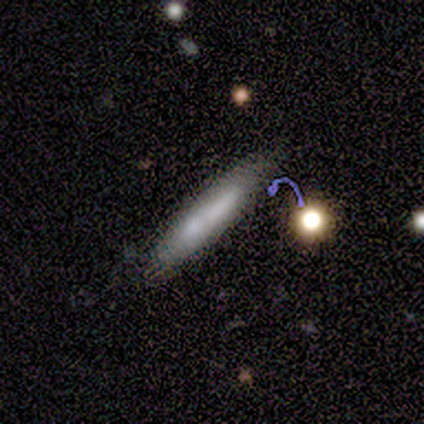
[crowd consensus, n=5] This appears to be a smooth galaxy with no disk features (40%, tied with featured or disk) that is cigar-shaped (100%). Merging: none (100%).